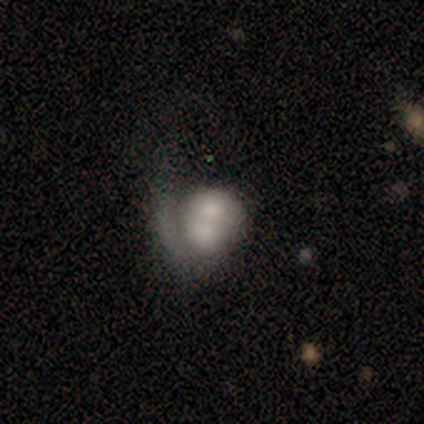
smooth_or_featured: featured or disk (p=0.60) [alt: smooth p=0.20]
disk_edge_on: no (p=1.00)
bar: no (p=1.00)
has_spiral_arms: yes (p=0.67) [alt: no p=0.33]
spiral_winding: tight (p=1.00)
spiral_arm_count: 1 (p=1.00)
bulge_size: dominant (p=0.33) [tied with: moderate p=0.33, none p=0.33]
merging: merger (p=0.50) [alt: none p=0.25]